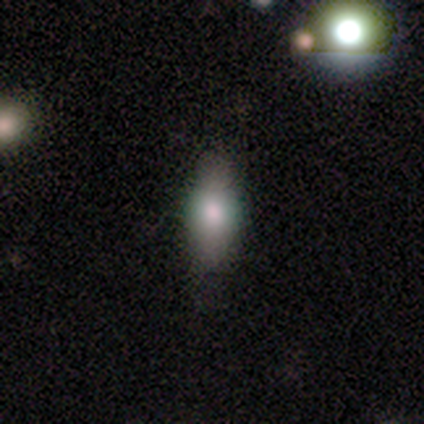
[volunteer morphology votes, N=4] Volunteers were most divided on "how rounded" (3-way tie): round: 33%, in between: 33%, cigar-shaped: 33%. More confident: smooth or featured — smooth (75%); merging — none (75%).